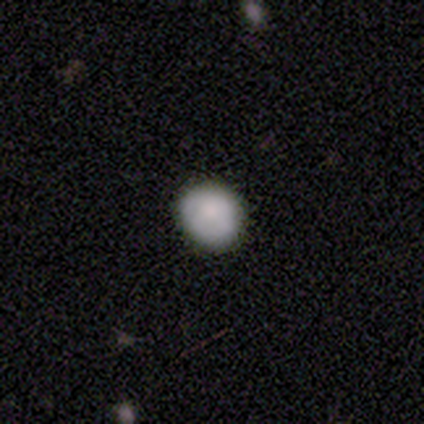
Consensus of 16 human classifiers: A smooth galaxy with no disk features (69%) that is round (73%). Merging: none (77%).